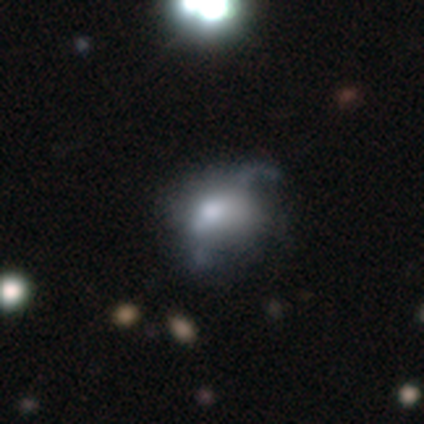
featured or disk 60%, star or artifact 40%, smooth 0%. Down the decision tree: edge-on disk — no (100%); bar — no (67%); spiral arms — no (67%); bulge size — large (33%, tied with moderate and none); merging — major disturbance (67%).